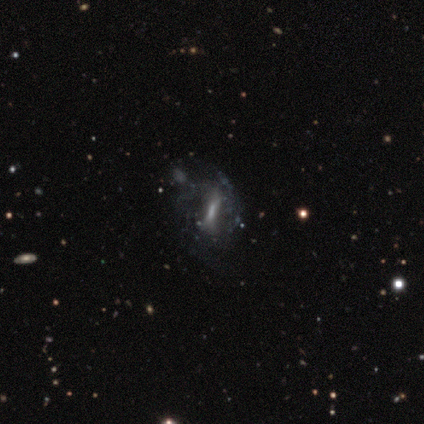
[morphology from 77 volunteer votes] Overall: featured or disk (83%). Edge-on disk: no (86%). Bar: strong (49%; weak 27%). Spiral arms: no (53%; yes 47%). Bulge size: small (42%; none 29%). Merging: none (24%; major disturbance 21%).